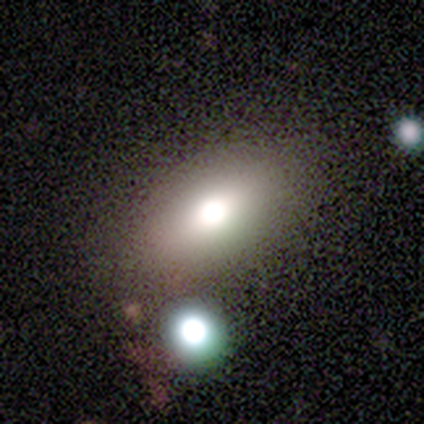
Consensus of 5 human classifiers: A smooth galaxy with no disk features (80%) that is in between round and cigar-shaped (50%).

Vote fractions:
- Smooth or featured? smooth: 80% / featured or disk: 20% / star or artifact: 0%
- How rounded? in between: 50% / round: 25% / cigar-shaped: 25%
- Merging? none: 60% / major disturbance: 40% / minor disturbance: 0% / merger: 0%